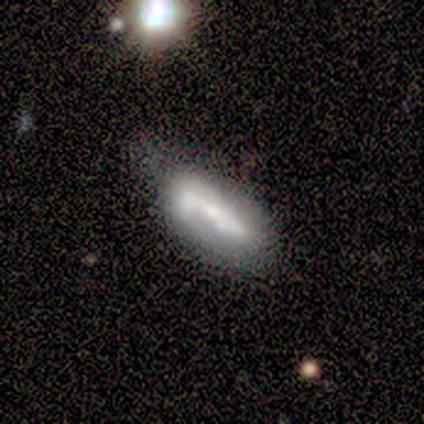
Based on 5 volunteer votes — This is marginally a smooth galaxy (40%, tied with featured or disk). How rounded: possibly in between (50%, tied with cigar-shaped). Merging: possibly none (50%).